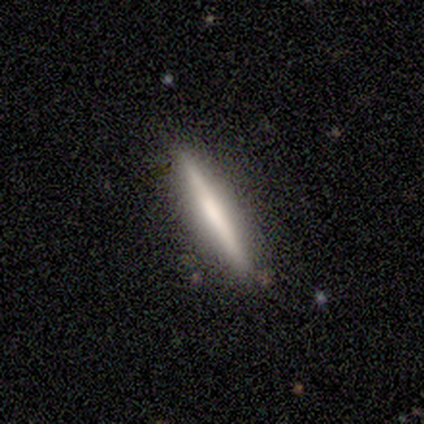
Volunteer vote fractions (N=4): Smooth or featured?
  - smooth: 50% *
  - featured or disk: 25%
  - star or artifact: 25%
How rounded?
  - cigar-shaped: 100% *
  - round: 0%
  - in between: 0%
Merging?
  - none: 100% *
  - minor disturbance: 0%
  - major disturbance: 0%
  - merger: 0%